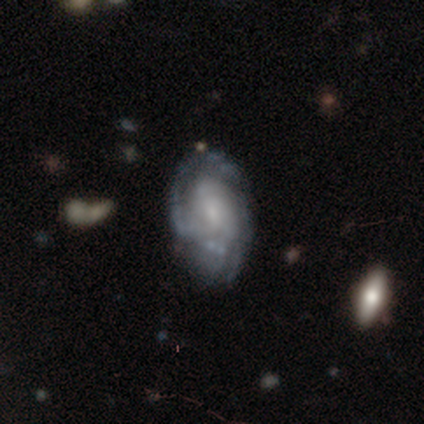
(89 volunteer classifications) Smooth or featured: featured or disk — 87% (smooth — 8%)
Edge-on disk: no — 96% (yes — 4%)
Bar: no — 65% (weak — 28%)
Spiral arms: yes — 85% (no — 15%)
Spiral winding: tight — 59% (medium — 30%)
Spiral arm count: can't tell — 51% (2 — 21%)
Bulge size: small — 55% (moderate — 24%)
Merging: none — 70% (minor disturbance — 23%)